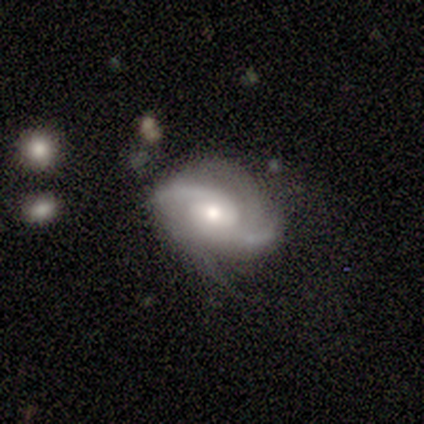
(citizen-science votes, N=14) Smooth or featured: featured or disk — 86% (smooth — 7%)
Edge-on disk: no — 100%
Bar: weak — 58% (no — 33%)
Spiral arms: yes — 92% (no — 8%)
Spiral winding: medium — 55% (tight — 27%)
Spiral arm count: 2 — 91% (4 — 9%)
Bulge size: moderate — 58% (small — 25%)
Merging: none — 62% (minor disturbance — 31%)